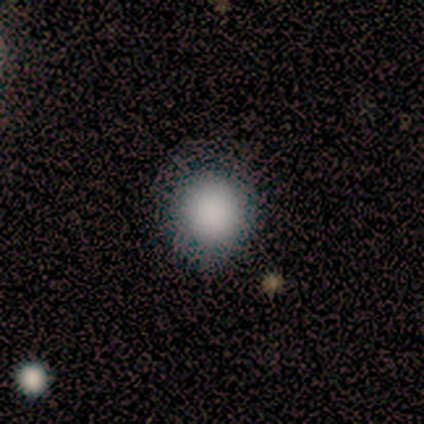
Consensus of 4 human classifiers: This appears to be a smooth galaxy with no disk features (100%) that is round (50%, tied with in between). Merging: none (100%).